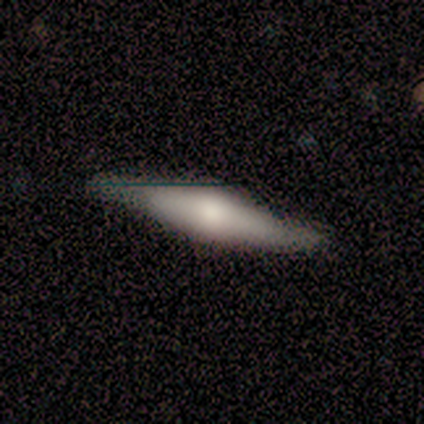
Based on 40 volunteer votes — Smooth or featured? 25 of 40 (62%) said featured or disk. Edge-on disk? 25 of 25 (100%) said yes. Edge-on bulge? 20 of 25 (80%) said rounded. Merging? 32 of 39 (82%) said none.